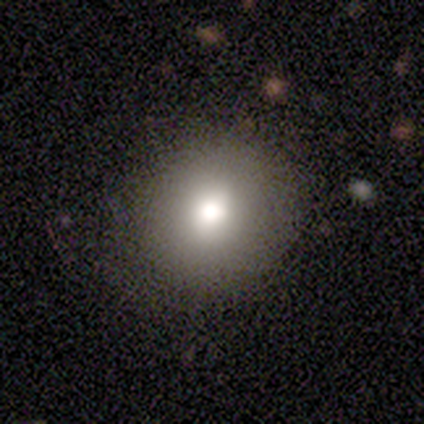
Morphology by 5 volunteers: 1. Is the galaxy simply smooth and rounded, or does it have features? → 80% smooth, 20% featured or disk, 0% star or artifact.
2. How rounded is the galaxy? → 75% round, 25% in between, 0% cigar-shaped.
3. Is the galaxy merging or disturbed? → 80% none, 20% merger, 0% minor disturbance, 0% major disturbance.